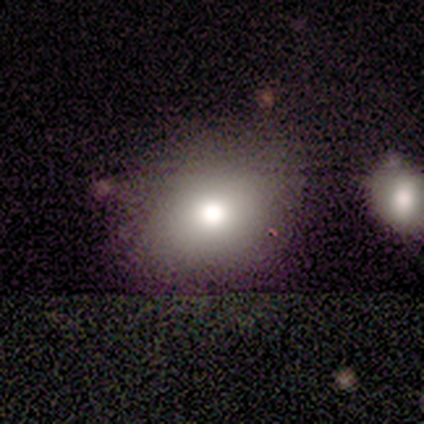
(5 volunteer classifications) This is likely a star or artifact rather than a galaxy (60%).